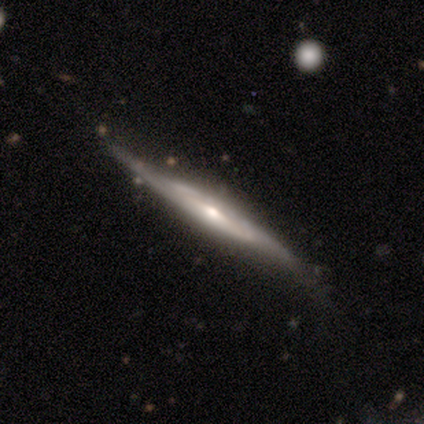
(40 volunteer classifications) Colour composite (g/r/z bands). It shows a featured or disk galaxy (82%) viewed edge-on (85%) with a rounded central bulge (68%). Merging: none (65%).